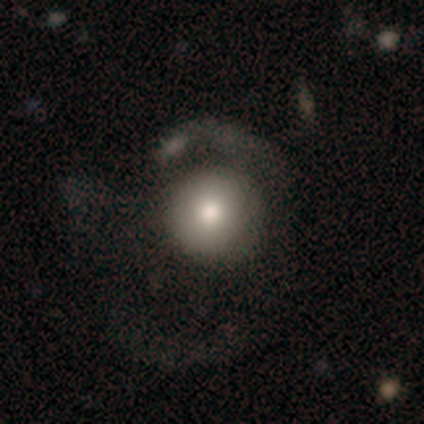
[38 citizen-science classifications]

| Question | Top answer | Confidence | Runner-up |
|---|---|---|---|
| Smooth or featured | smooth | 74% | featured or disk (26%) |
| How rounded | round | 100% | — |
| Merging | major disturbance | 50% | none (21%) |